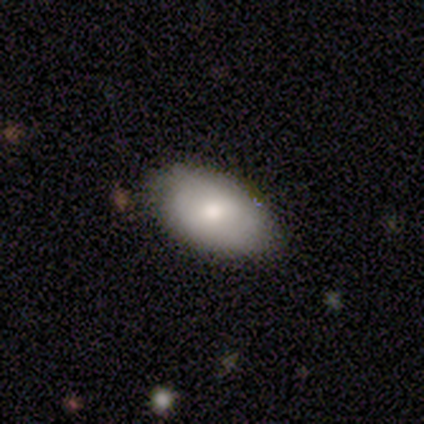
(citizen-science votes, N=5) Smooth or featured? 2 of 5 (40%, tied with star or artifact) said smooth. How rounded? 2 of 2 (100%) said in between. Merging? 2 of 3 (67%) said none.